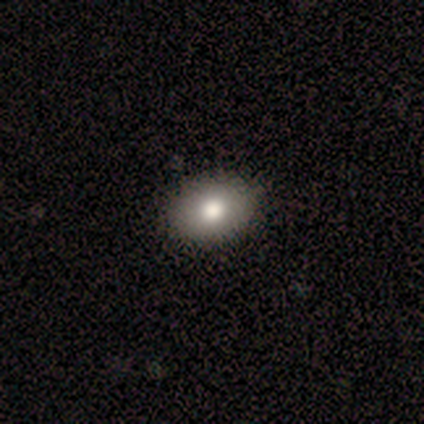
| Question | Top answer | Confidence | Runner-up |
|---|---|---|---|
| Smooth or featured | smooth | 74% | featured or disk (15%) |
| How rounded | in between | 66% | round (34%) |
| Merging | none | 71% | minor disturbance (6%) |